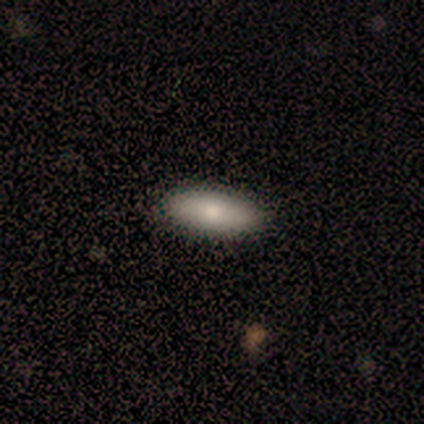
Overall: smooth (100%). How rounded: in between (50%, tied with cigar-shaped). Merging: none (100%).